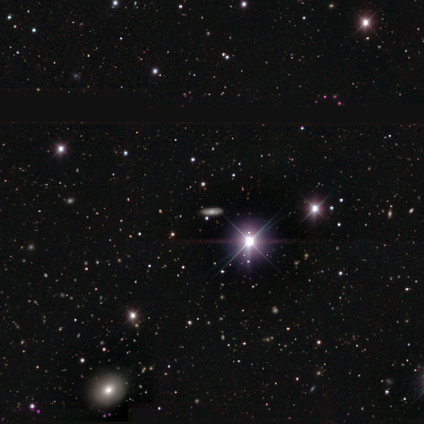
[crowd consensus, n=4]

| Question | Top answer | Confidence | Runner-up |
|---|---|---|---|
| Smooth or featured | smooth | 75% | star or artifact (25%) |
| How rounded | cigar-shaped | 67% | in between (33%) |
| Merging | none | 100% | — |